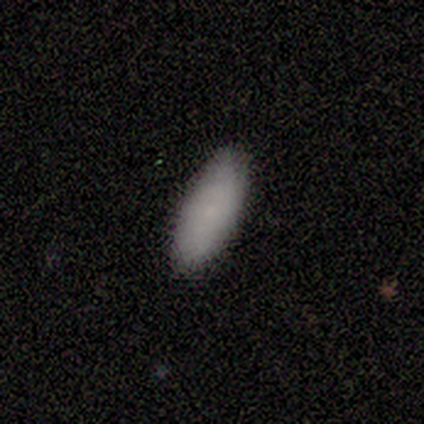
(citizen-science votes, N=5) Morphology: type=smooth (80%); roundness=in between (100%); merging=none (100%).